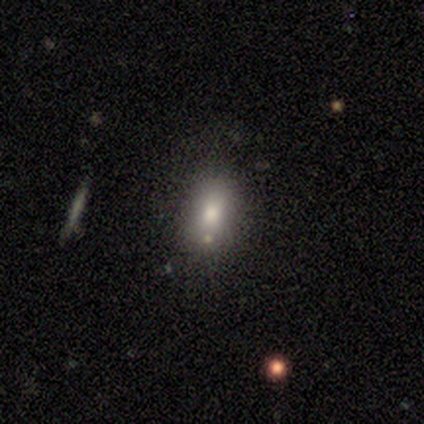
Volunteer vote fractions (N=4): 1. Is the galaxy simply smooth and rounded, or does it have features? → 100% smooth, 0% featured or disk, 0% star or artifact.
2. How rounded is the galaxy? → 100% in between, 0% round, 0% cigar-shaped.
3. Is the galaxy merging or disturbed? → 100% none, 0% minor disturbance, 0% major disturbance, 0% merger.